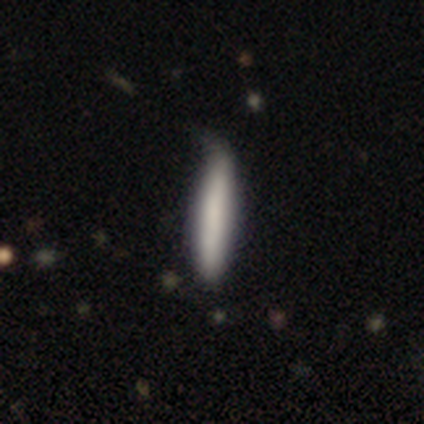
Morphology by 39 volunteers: This is clearly a smooth galaxy (90%). How rounded: clearly cigar-shaped (94%). Merging: marginally none (38%).